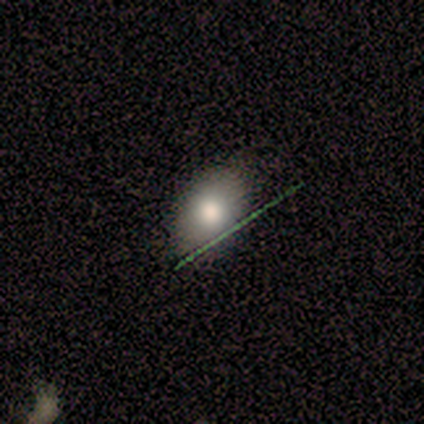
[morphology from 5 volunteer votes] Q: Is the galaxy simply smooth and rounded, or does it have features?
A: smooth — 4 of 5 (80%).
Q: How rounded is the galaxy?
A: in between — 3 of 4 (75%).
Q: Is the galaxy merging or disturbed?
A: none — 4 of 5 (80%).